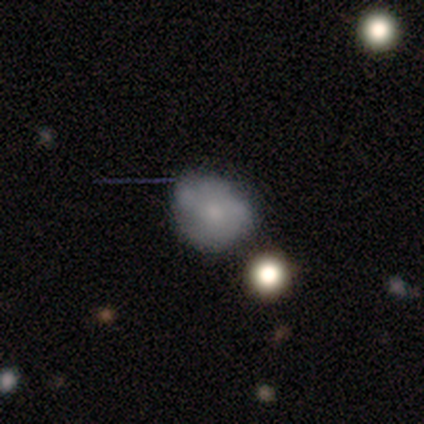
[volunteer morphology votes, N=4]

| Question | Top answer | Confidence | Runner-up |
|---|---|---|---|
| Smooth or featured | smooth | 50% | tied: featured or disk (50%) |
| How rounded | round | 50% | tied: in between (50%) |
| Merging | none | 75% | merger (25%) |